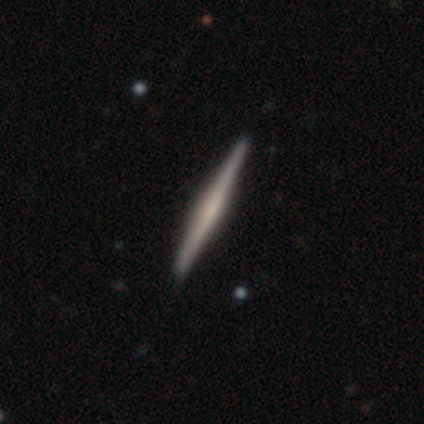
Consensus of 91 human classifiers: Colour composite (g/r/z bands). It shows a featured or disk galaxy (69%) viewed edge-on (98%) with no central bulge (42%). Merging: none (95%).